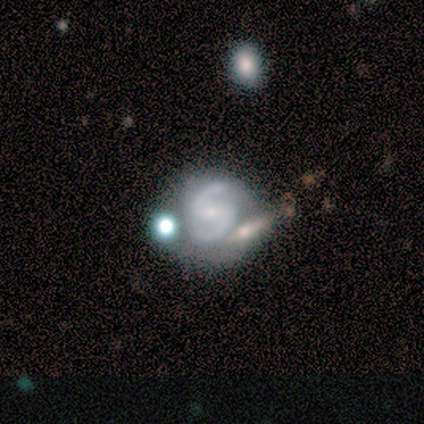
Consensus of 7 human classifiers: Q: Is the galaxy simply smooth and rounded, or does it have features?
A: featured or disk — 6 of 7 (86%).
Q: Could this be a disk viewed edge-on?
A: no — 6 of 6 (100%).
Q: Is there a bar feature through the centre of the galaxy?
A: no — 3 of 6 (50%).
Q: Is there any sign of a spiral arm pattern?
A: yes — 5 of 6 (83%).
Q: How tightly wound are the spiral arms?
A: medium — 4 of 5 (80%).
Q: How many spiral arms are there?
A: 2 — 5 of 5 (100%).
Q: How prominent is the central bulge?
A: small — 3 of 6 (50%).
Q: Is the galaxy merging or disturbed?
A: none — 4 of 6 (67%).